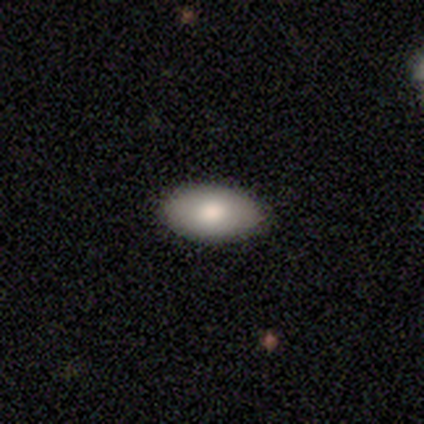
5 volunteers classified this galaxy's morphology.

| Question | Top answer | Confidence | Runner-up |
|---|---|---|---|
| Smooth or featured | smooth | 100% | — |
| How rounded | in between | 100% | — |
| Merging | none | 100% | — |